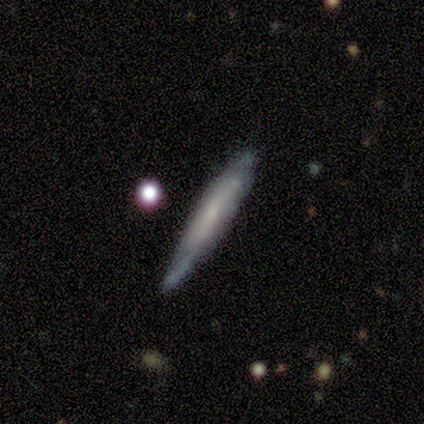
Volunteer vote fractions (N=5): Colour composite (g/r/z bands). It shows a smooth galaxy with no disk features (80%) that is cigar-shaped (75%). Merging: none (60%).